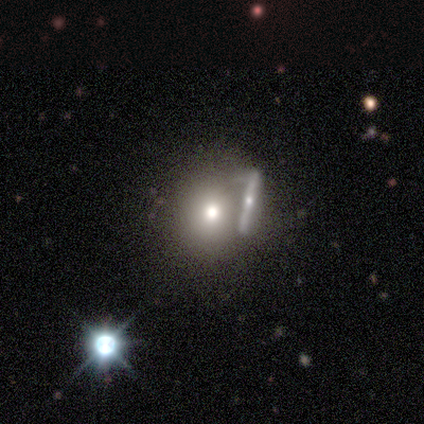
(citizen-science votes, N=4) This appears to be a smooth galaxy with no disk features (75%) that is round (67%). Merging: none (33%, tied with minor disturbance and major disturbance).